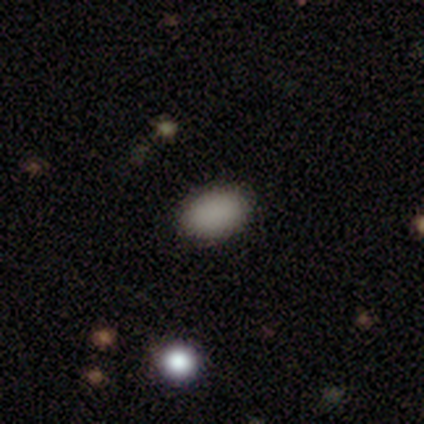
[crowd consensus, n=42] This is clearly a smooth galaxy (90%). How rounded: clearly in between (95%). Merging: clearly none (89%).